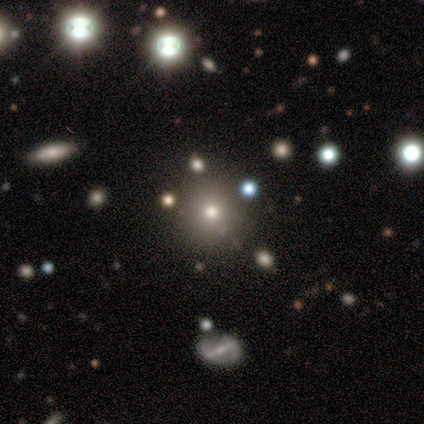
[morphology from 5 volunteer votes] Smooth or featured?
  - smooth: 60% *
  - featured or disk: 20%
  - star or artifact: 20%
How rounded?
  - round: 100% *
  - in between: 0%
  - cigar-shaped: 0%
Merging?
  - none: 75% *
  - minor disturbance: 25%
  - major disturbance: 0%
  - merger: 0%